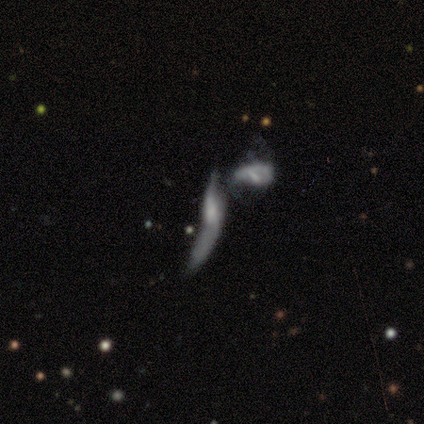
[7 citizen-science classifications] smooth-or-featured: featured or disk: 71% | smooth: 14% | star or artifact: 14%
  disk-edge-on: no: 80% | yes: 20%
    bar: no: 75% | weak: 25% | strong: 0%
    has-spiral-arms: no: 75% | yes: 25%
    bulge-size: small: 50% | moderate: 25% | none: 25% | dominant: 0% | large: 0%
  merging: merger: 83% | major disturbance: 17% | none: 0% | minor disturbance: 0%